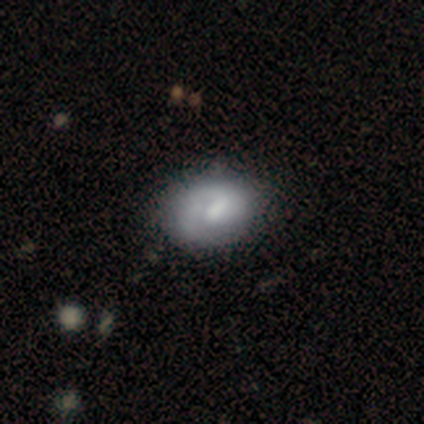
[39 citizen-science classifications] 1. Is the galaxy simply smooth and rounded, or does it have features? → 62% smooth, 33% featured or disk, 5% star or artifact.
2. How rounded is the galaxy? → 71% in between, 29% round, 0% cigar-shaped.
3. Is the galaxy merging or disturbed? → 54% none, 11% minor disturbance, 0% major disturbance, 0% merger.